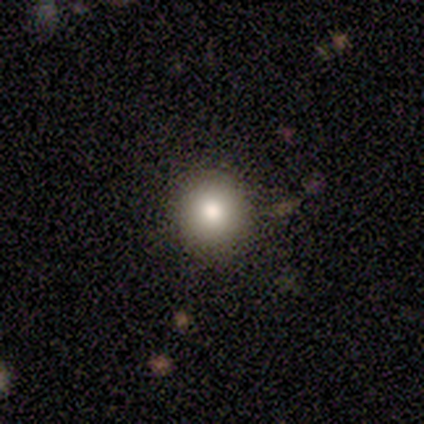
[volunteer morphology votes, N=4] smooth 75%, featured or disk 25%, star or artifact 0%. Down the decision tree: how rounded — round (100%); merging — none (50%).